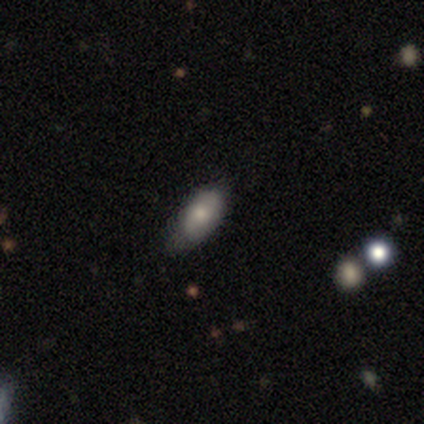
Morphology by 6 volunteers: This is clearly a smooth galaxy (83%). How rounded: clearly in between (100%). Merging: possibly none (50%).